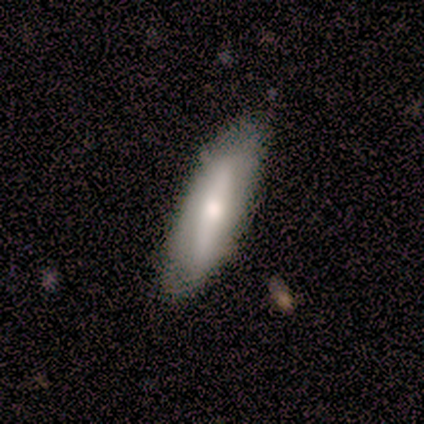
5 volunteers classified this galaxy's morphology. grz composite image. It shows a smooth galaxy with no disk features (60%) that is cigar-shaped (67%). Merging: none (80%).